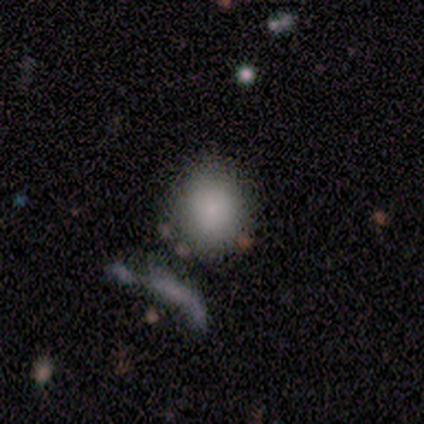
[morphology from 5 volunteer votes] Overall: smooth (100%). How rounded: round (100%). Merging: none (80%).